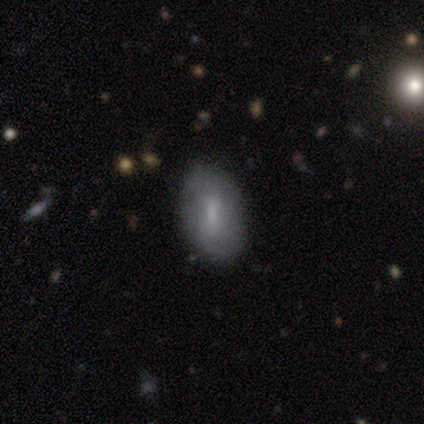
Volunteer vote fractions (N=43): This appears to be a smooth galaxy with no disk features (49%) that is in between round and cigar-shaped (100%). Merging: none (54%).